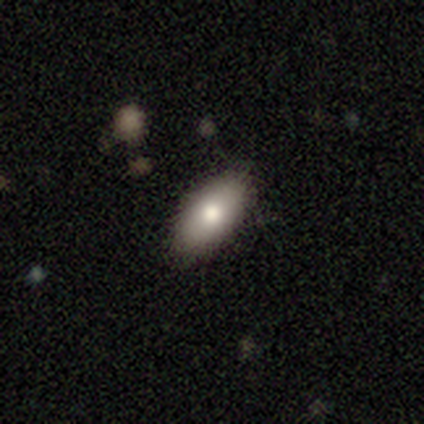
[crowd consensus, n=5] Smooth or featured? smooth (60%)
How rounded? in between (67%)
Merging? none (67%)